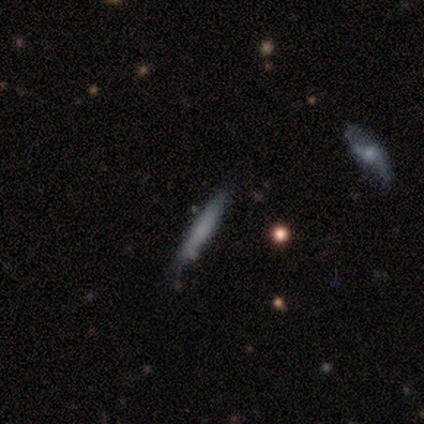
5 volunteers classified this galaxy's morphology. This is clearly a smooth galaxy (80%). How rounded: clearly cigar-shaped (100%). Merging: likely none (60%).